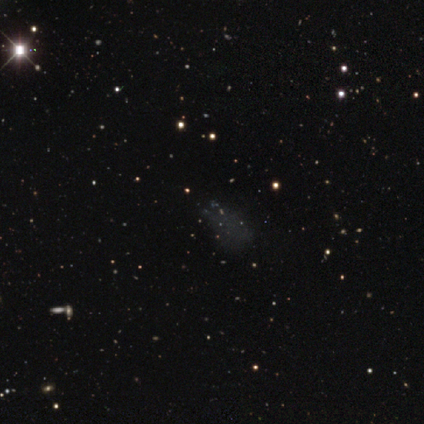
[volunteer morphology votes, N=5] Smooth or featured? star or artifact (80%)